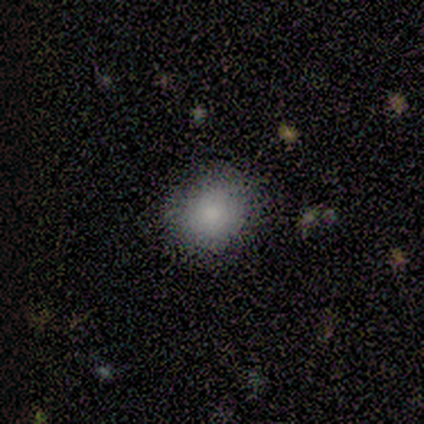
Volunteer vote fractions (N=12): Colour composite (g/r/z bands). It shows a smooth galaxy with no disk features (83%) that is round (80%). Merging: none (70%).